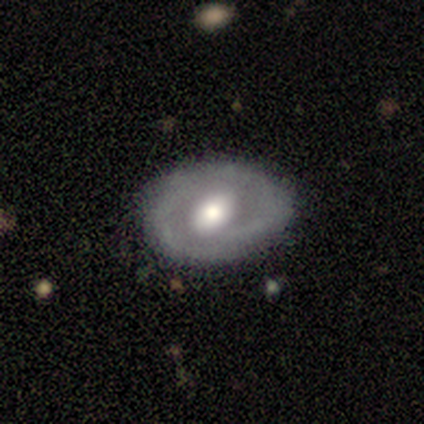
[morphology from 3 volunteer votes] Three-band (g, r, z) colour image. It shows a smooth galaxy with no disk features (33%, tied with featured or disk and star or artifact) that is round (100%). Merging: none (100%).